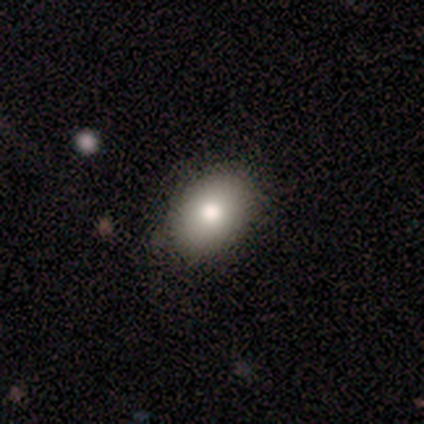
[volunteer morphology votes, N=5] Smooth or featured? 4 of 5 (80%) said smooth. How rounded? 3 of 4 (75%) said in between. Merging? 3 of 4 (75%) said none.